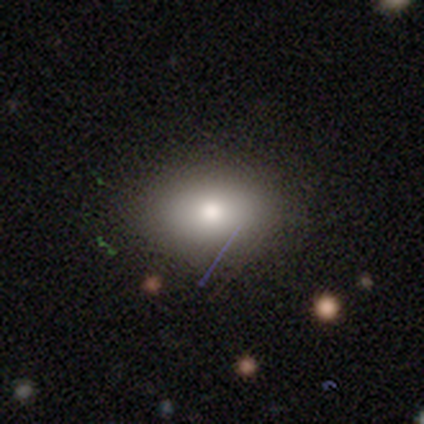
smooth_or_featured: smooth (p=0.73) [alt: star or artifact p=0.19]
how_rounded: in between (p=0.70) [alt: round p=0.30]
merging: none (p=0.80) [alt: minor disturbance p=0.13]